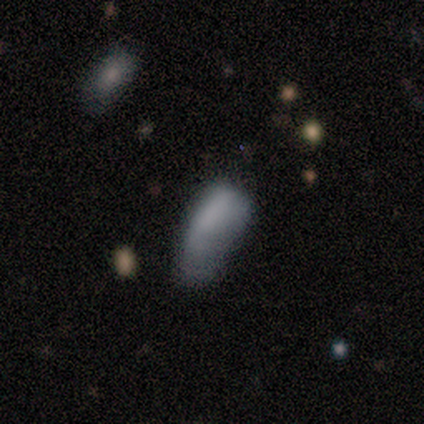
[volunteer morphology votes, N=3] smooth_or_featured: smooth (p=1.00)
how_rounded: cigar-shaped (p=0.67) [alt: in between p=0.33]
merging: none (p=0.67) [alt: minor disturbance p=0.33]